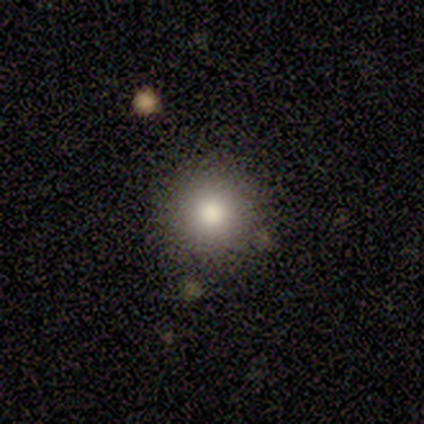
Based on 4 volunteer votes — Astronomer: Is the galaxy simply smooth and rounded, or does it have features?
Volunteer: smooth — 100%.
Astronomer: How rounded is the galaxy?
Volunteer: round — 100%.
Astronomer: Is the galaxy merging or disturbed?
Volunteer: none — 75%.